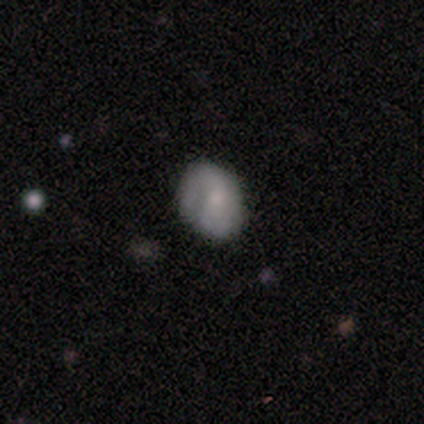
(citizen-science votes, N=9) smooth-or-featured: smooth: 67% | featured or disk: 33% | star or artifact: 0%
  how-rounded: round: 83% | in between: 17% | cigar-shaped: 0%
  merging: none: 56% | minor disturbance: 33% | major disturbance: 11% | merger: 0%